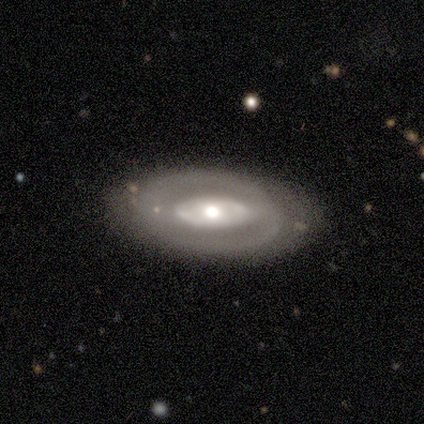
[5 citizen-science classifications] Morphology: type=featured or disk (100%); edge-on=no (100%); bar=no (60%); spiral arms=no (60%); bulge=large (80%); merging=none (80%).